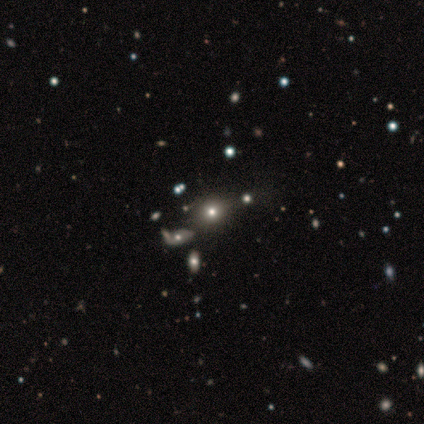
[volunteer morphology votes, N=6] This appears to be a star or artifact, not a galaxy (67%).